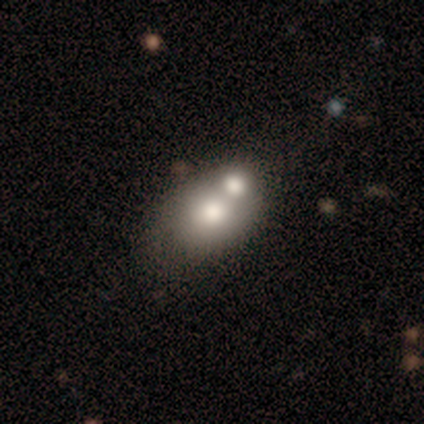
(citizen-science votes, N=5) This appears to be a smooth galaxy with no disk features (60%) that is in between round and cigar-shaped (67%). Merging: merger (60%).